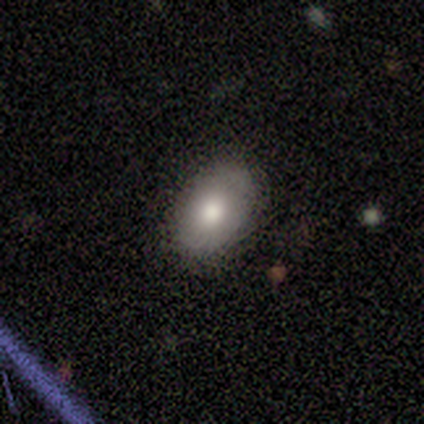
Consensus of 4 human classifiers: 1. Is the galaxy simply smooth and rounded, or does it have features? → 100% smooth, 0% featured or disk, 0% star or artifact.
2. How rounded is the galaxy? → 100% in between, 0% round, 0% cigar-shaped.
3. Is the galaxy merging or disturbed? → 100% none, 0% minor disturbance, 0% major disturbance, 0% merger.